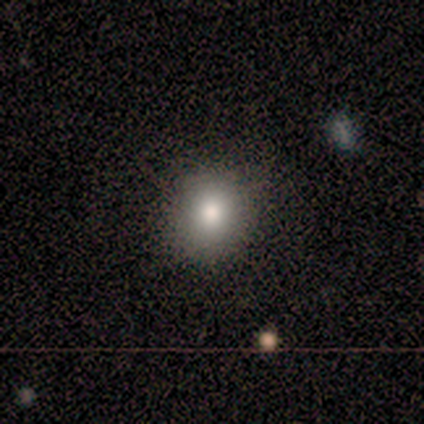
Smooth or featured? 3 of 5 (60%) said smooth. How rounded? 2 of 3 (67%) said round. Merging? 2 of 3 (67%) said none.